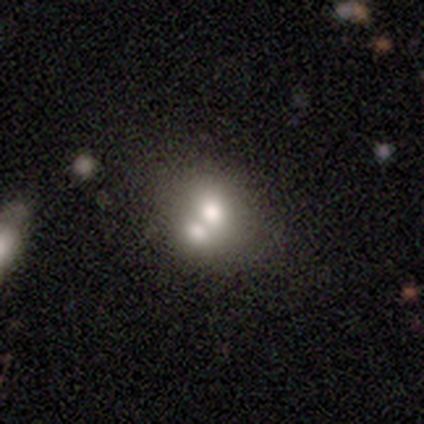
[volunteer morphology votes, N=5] Smooth or featured? 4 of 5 (80%) said smooth. How rounded? 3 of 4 (75%) said round. Merging? 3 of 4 (75%) said merger.